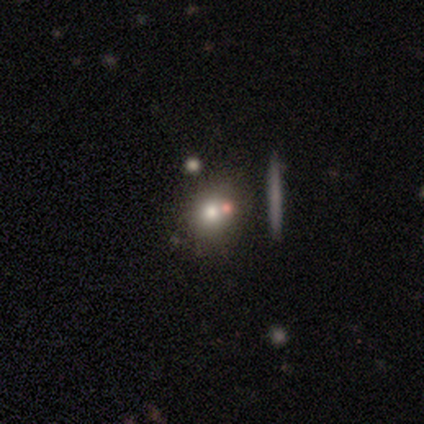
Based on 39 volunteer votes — Q: Smooth or featured?
A: smooth (49%); runner-up: featured or disk (26%)
Q: How rounded?
A: round (74%); runner-up: in between (26%)
Q: Merging?
A: merger (55%)